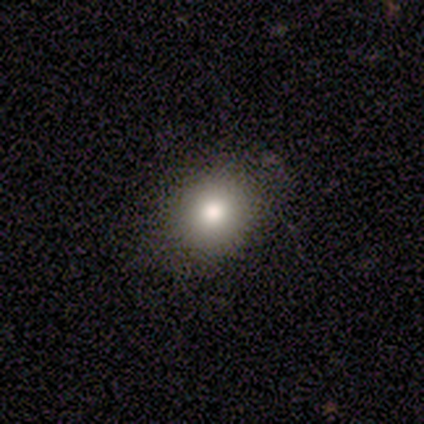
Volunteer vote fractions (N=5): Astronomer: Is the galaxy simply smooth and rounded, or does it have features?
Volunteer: smooth — 80%.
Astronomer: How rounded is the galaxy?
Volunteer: in between — 75%.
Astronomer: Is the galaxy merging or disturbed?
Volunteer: none — 100%.